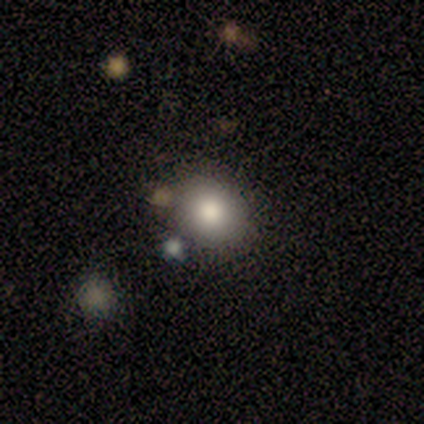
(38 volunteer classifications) smooth 82%, star or artifact 13%, featured or disk 5%. Down the decision tree: how rounded — round (74%); merging — none (82%).